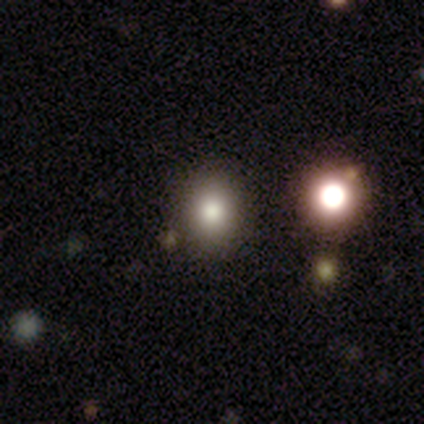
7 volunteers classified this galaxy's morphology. Smooth or featured? 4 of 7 (57%) said smooth. How rounded? 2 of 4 (50%, tied with in between) said round. Merging? 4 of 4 (100%) said none.